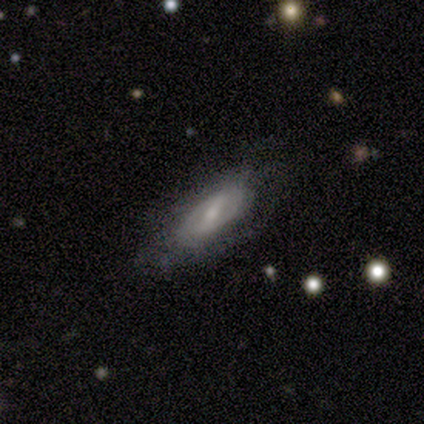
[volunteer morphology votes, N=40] Volunteers were most divided on "bar" (2-way tie): strong: 46%, weak: 46%, no: 8%. Remaining: edge-on disk — no (96%); spiral arms — yes (62%); smooth or featured — featured or disk (62%); merging — none (62%); spiral arm count — 2 (60%); bulge size — small (50%); spiral winding — tight (47%).